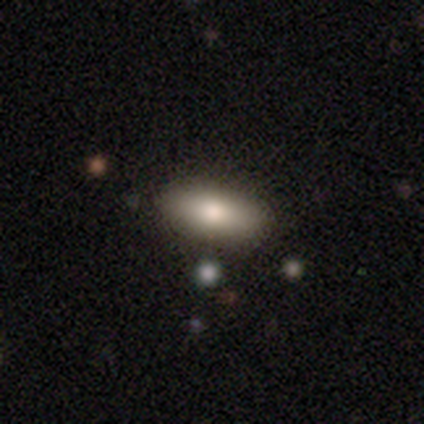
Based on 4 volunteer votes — This is clearly a smooth galaxy (100%). How rounded: clearly in between (100%). Merging: likely none (75%).